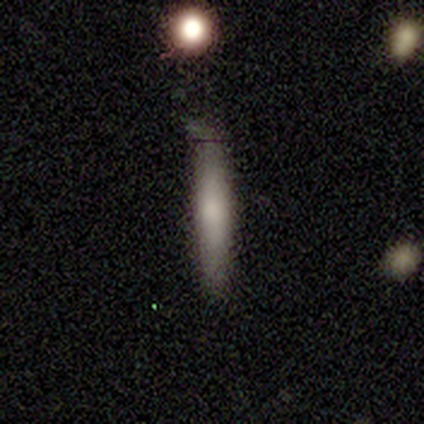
smooth-or-featured: smooth: 60% | featured or disk: 40% | star or artifact: 0%
  how-rounded: cigar-shaped: 67% | in between: 33% | round: 0%
  merging: none: 40% (tied) | minor disturbance: 40% (tied) | major disturbance: 20% | merger: 0%